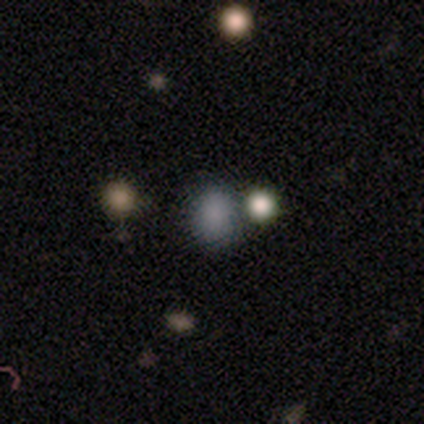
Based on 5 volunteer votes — Smooth or featured: smooth — 100%
How rounded: round — 60% (in between — 40%)
Merging: none — 40% (tied with minor disturbance — 40%)